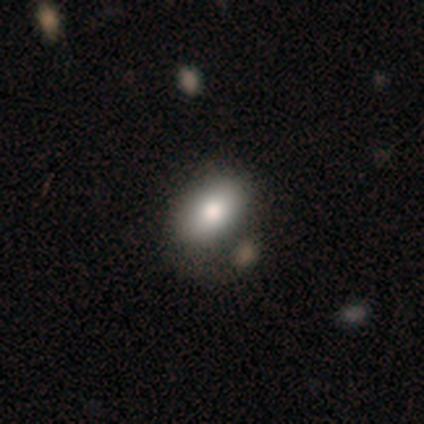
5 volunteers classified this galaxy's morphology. Smooth or featured? smooth (100%)
How rounded? in between (100%)
Merging? none (60%)